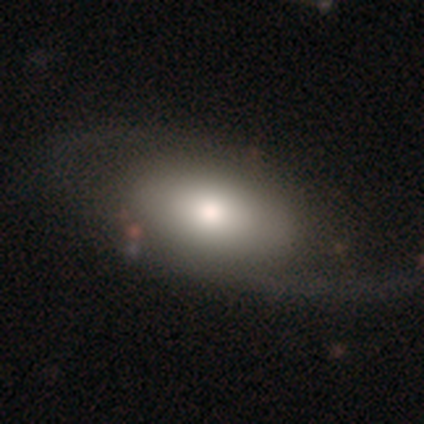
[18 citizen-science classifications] smooth_or_featured: featured or disk (p=0.61) [alt: smooth p=0.33]
disk_edge_on: no (p=0.82) [alt: yes p=0.18]
bar: no (p=1.00)
has_spiral_arms: no (p=0.56) [alt: yes p=0.44]
bulge_size: moderate (p=0.56) [alt: large p=0.22]
merging: none (p=0.82) [alt: minor disturbance p=0.12]